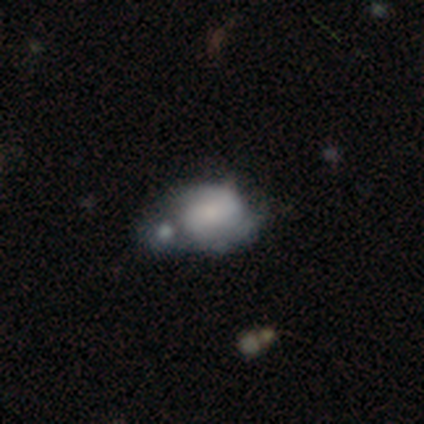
Overall: featured or disk (51%; smooth 41%). Edge-on disk: no (100%). Bar: no (55%; weak 35%). Spiral arms: yes (60%; no 40%). Spiral arm count: 2 (75%). Spiral winding: tight (50%; medium 25%). Bulge size: moderate (50%; none 30%). Merging: merger (53%; major disturbance 14%).